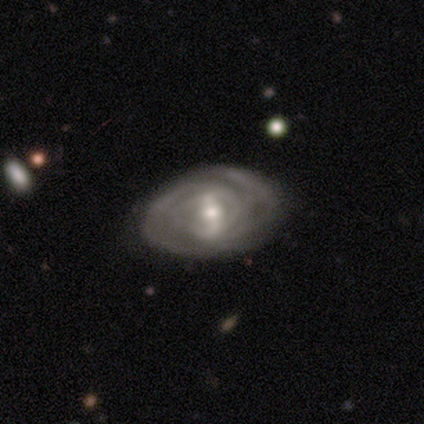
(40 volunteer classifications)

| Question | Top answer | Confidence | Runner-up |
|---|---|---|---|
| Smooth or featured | featured or disk | 92% | smooth (5%) |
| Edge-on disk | no | 97% | yes (3%) |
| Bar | weak | 50% | strong (39%) |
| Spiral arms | yes | 89% | no (11%) |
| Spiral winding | tight | 75% | medium (22%) |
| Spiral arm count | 2 | 34% | 3 (31%) |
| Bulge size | moderate | 58% | small (36%) |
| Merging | none | 59% | minor disturbance (8%) |